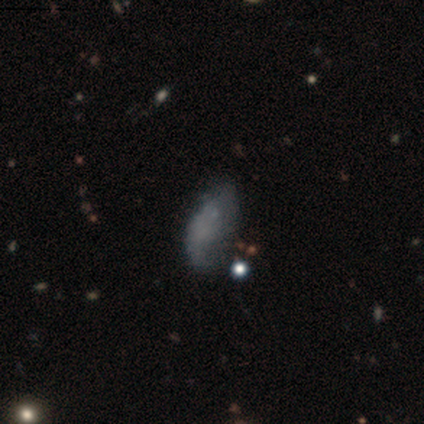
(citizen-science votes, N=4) featured or disk 50%, smooth 25%, star or artifact 25%. Down the decision tree: edge-on disk — yes (50%, tied with no); edge-on bulge — rounded (100%); merging — none (33%, tied with minor disturbance and merger).